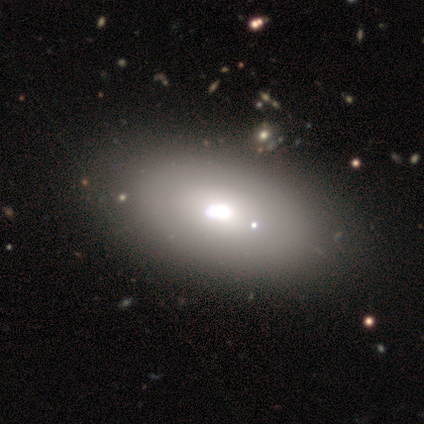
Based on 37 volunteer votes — Overall: smooth (68%). How rounded: in between (92%). Merging: none (42%; merger 12%).